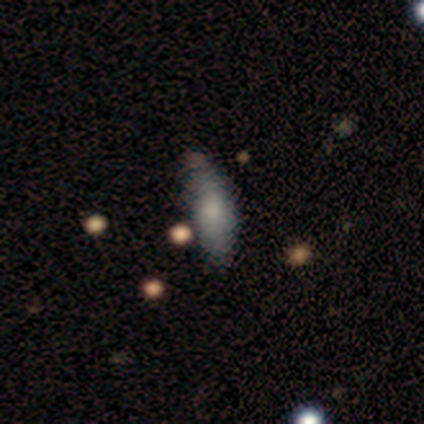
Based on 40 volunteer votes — A smooth galaxy with no disk features (72%) that is in between round and cigar-shaped (72%).

Vote fractions:
- Smooth or featured? smooth: 72% / featured or disk: 22% / star or artifact: 5%
- How rounded? in between: 72% / cigar-shaped: 28% / round: 0%
- Merging? none: 63% / minor disturbance: 32% / merger: 5% / major disturbance: 0%